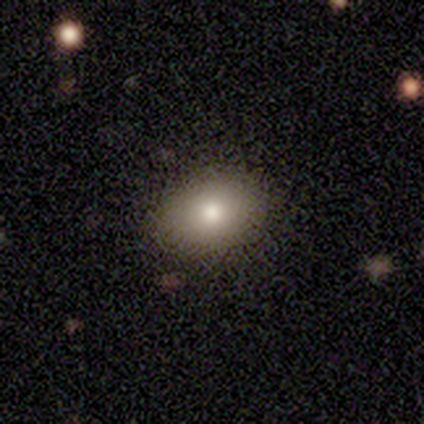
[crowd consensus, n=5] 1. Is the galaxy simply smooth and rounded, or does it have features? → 60% smooth, 40% star or artifact, 0% featured or disk.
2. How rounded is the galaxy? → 100% round, 0% in between, 0% cigar-shaped.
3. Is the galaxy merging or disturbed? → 100% none, 0% minor disturbance, 0% major disturbance, 0% merger.